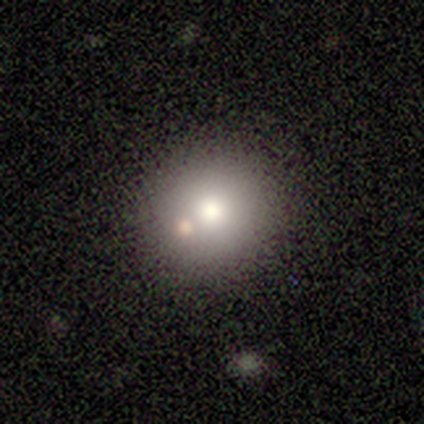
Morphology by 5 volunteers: smooth 100%, featured or disk 0%, star or artifact 0%. Down the decision tree: how rounded — round (80%); merging — none (40%, tied with merger).